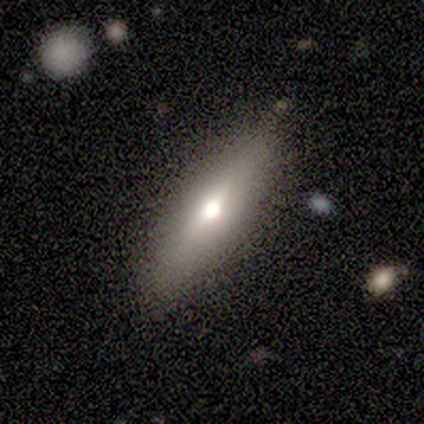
smooth-or-featured: smooth: 67% | featured or disk: 28% | star or artifact: 5%
  how-rounded: cigar-shaped: 58% | in between: 42% | round: 0%
  merging: none: 86% | major disturbance: 8% | minor disturbance: 5% | merger: 0%